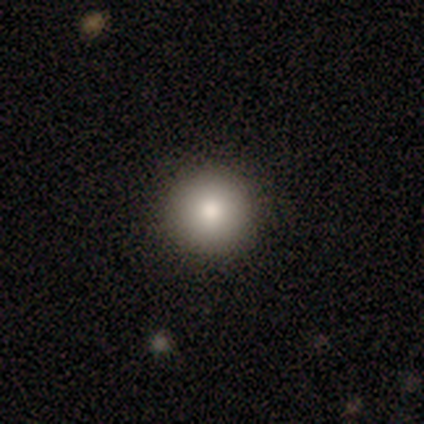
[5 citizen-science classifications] A smooth galaxy with no disk features (60%) that is round (100%).

Vote fractions:
- Smooth or featured? smooth: 60% / star or artifact: 40% / featured or disk: 0%
- How rounded? round: 100% / in between: 0% / cigar-shaped: 0%
- Merging? none: 100% / minor disturbance: 0% / major disturbance: 0% / merger: 0%